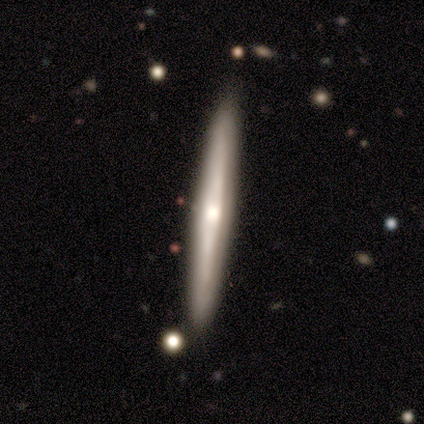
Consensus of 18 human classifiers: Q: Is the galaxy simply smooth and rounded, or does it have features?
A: featured or disk — 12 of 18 (67%).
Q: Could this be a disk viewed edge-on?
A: yes — 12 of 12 (100%).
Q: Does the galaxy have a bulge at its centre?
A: rounded — 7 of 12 (58%).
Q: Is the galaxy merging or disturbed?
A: none — 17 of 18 (94%).